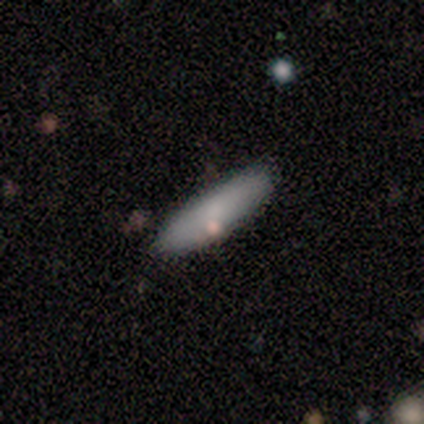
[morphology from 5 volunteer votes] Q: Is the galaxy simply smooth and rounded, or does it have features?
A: smooth — 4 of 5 (80%).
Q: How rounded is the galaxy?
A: cigar-shaped — 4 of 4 (100%).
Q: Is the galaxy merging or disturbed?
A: none — 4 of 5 (80%).